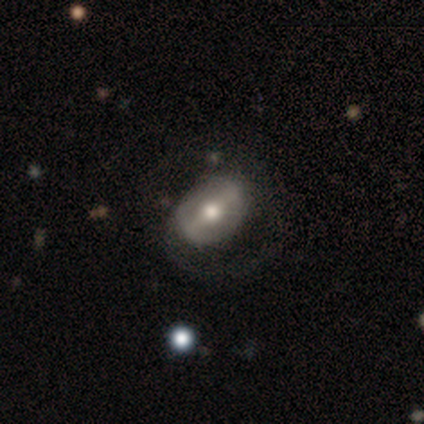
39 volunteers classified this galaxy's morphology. A featured or disk galaxy (69%) with a strong bar (62%), no spiral arms (67%) and a moderate central bulge (88%). Merging: none (42%).